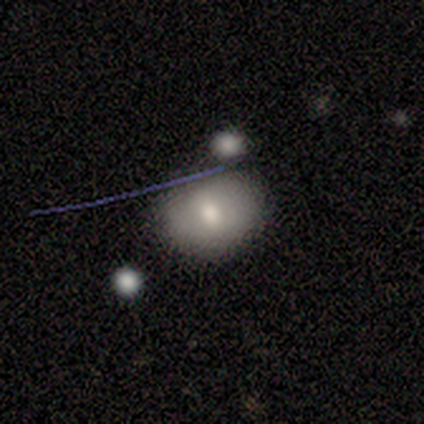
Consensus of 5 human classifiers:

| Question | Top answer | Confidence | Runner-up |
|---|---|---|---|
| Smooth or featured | smooth | 60% | featured or disk (20%) |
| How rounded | in between | 67% | round (33%) |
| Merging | none | 75% | merger (25%) |